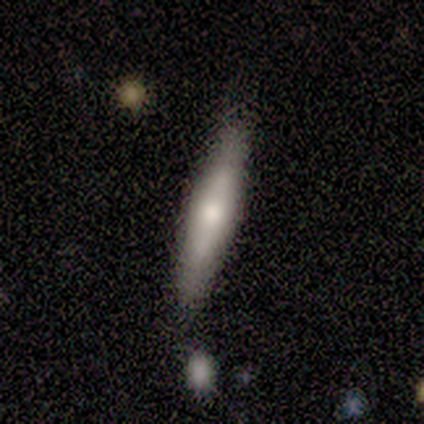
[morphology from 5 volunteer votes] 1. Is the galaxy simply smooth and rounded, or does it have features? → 60% featured or disk, 40% smooth, 0% star or artifact.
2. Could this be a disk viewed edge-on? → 100% yes, 0% no.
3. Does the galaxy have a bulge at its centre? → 100% rounded, 0% boxy, 0% none.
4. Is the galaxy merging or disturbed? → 100% none, 0% minor disturbance, 0% major disturbance, 0% merger.